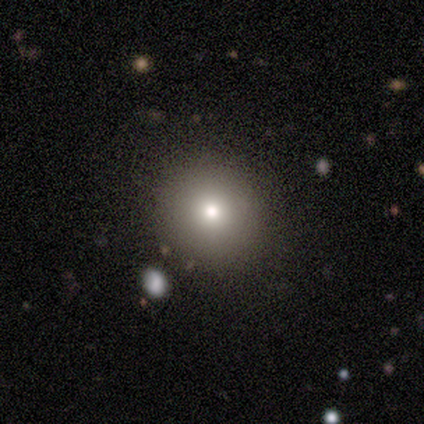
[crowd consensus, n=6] Volunteers were most divided on "smooth or featured": smooth: 83%, featured or disk: 17%, star or artifact: 0%. More confident: how rounded — round (100%); merging — none (100%).